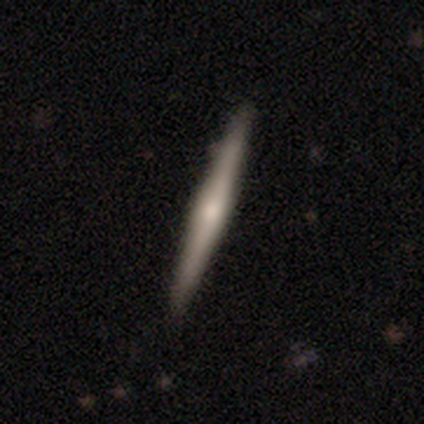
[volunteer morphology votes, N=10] Smooth or featured?
  - smooth: 50% * (tied)
  - featured or disk: 50% * (tied)
  - star or artifact: 0%
How rounded?
  - cigar-shaped: 80% *
  - in between: 20%
  - round: 0%
Merging?
  - none: 90% *
  - major disturbance: 10%
  - minor disturbance: 0%
  - merger: 0%